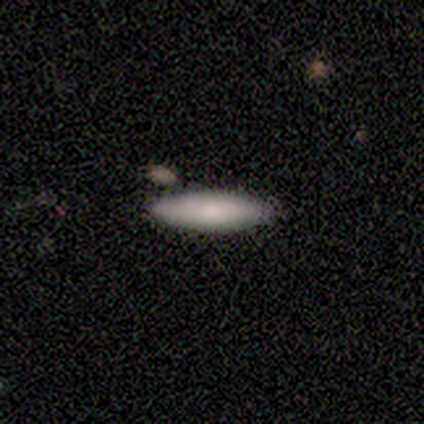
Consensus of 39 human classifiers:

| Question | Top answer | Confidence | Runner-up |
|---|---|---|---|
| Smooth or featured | smooth | 79% | featured or disk (13%) |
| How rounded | cigar-shaped | 68% | in between (29%) |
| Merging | none | 83% | minor disturbance (8%) |